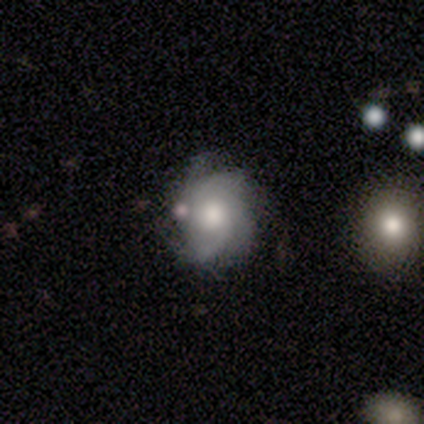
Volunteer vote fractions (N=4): Q: Smooth or featured?
A: featured or disk (50%); runner-up: smooth (25%)
Q: Edge-on disk?
A: no (100%)
Q: Bar?
A: weak (50%); tied with: no (50%)
Q: Spiral arms?
A: yes (100%)
Q: Spiral winding?
A: tight (50%); tied with: medium (50%)
Q: Spiral arm count?
A: 3 (50%); tied with: can't tell (50%)
Q: Bulge size?
A: large (50%); tied with: moderate (50%)
Q: Merging?
A: minor disturbance (67%); runner-up: merger (33%)